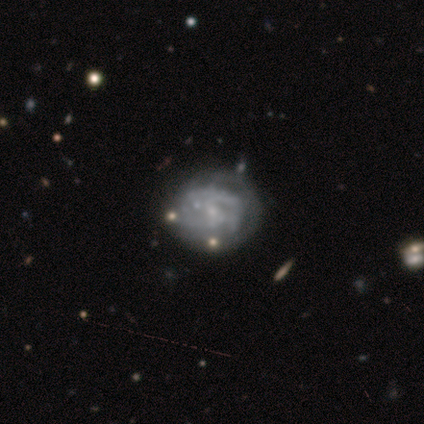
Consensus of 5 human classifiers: A featured or disk galaxy (100%) with no bar (100%), no spiral arms (60%) and a small central bulge (80%). Merging: none (80%).